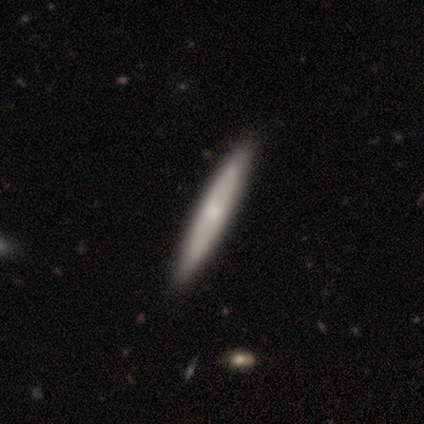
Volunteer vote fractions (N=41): Morphology: type=smooth (54%); roundness=cigar-shaped (95%); merging=none (77%).